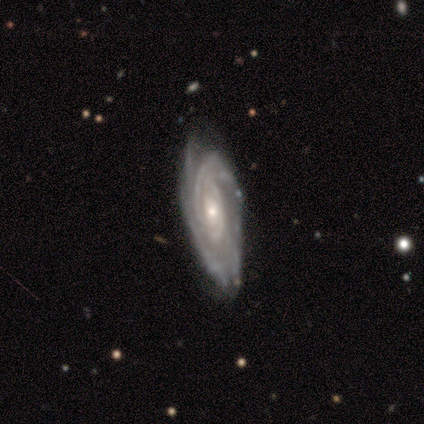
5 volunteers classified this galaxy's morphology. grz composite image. It shows a featured or disk galaxy (80%) with no bar (75%), tight (100%) spiral arms (100%) and a small central bulge (75%). Merging: none (50%, tied with minor disturbance).